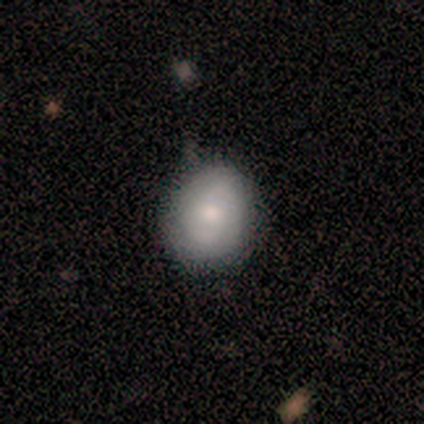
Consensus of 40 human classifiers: Morphology: type=smooth (60%); roundness=in between (54%); merging=none (74%).